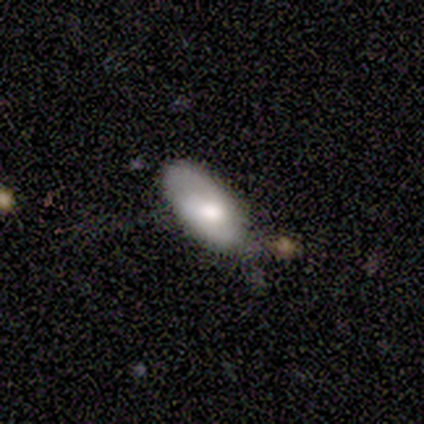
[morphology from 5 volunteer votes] Smooth or featured?
  - smooth: 100% *
  - featured or disk: 0%
  - star or artifact: 0%
How rounded?
  - in between: 80% *
  - cigar-shaped: 20%
  - round: 0%
Merging?
  - none: 40% * (tied)
  - minor disturbance: 40% * (tied)
  - merger: 20%
  - major disturbance: 0%